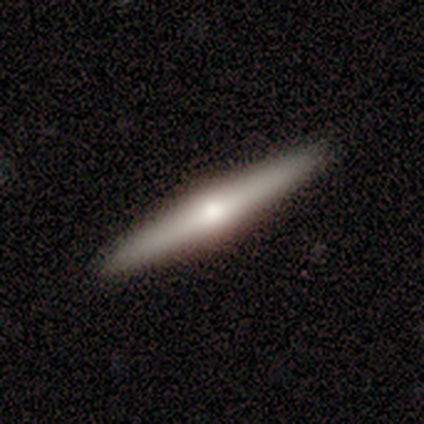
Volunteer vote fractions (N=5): This is likely a smooth galaxy (60%). How rounded: clearly cigar-shaped (100%). Merging: likely none (75%).